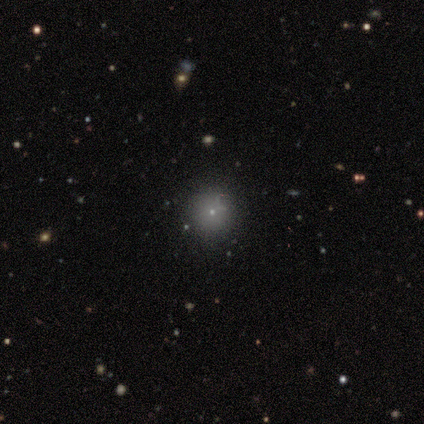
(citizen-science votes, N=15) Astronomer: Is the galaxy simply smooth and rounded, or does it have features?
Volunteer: smooth — 53%.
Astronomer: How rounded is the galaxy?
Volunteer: round — 100%.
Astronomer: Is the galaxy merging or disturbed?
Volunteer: none — 91%.